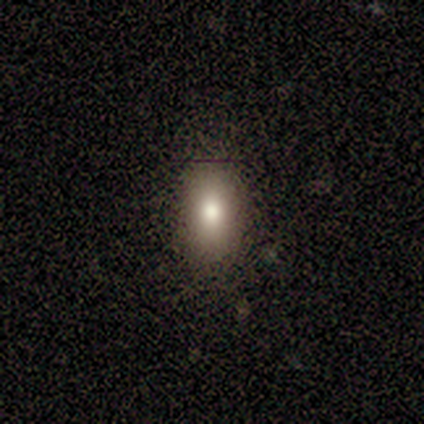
This appears to be a smooth galaxy with no disk features (90%) that is in between round and cigar-shaped (86%). Merging: none (90%).